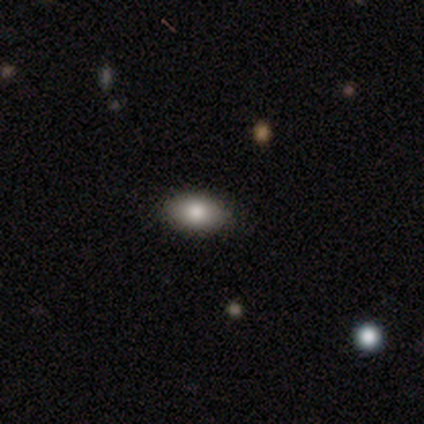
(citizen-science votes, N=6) Smooth or featured: smooth — 100%
How rounded: in between — 100%
Merging: none — 67% (minor disturbance — 33%)